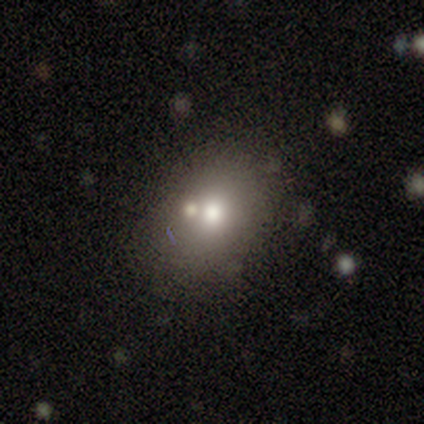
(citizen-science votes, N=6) Smooth or featured?
  - smooth: 67% *
  - featured or disk: 17%
  - star or artifact: 17%
How rounded?
  - round: 50% * (tied)
  - in between: 50% * (tied)
  - cigar-shaped: 0%
Merging?
  - none: 60% *
  - major disturbance: 20%
  - merger: 20%
  - minor disturbance: 0%